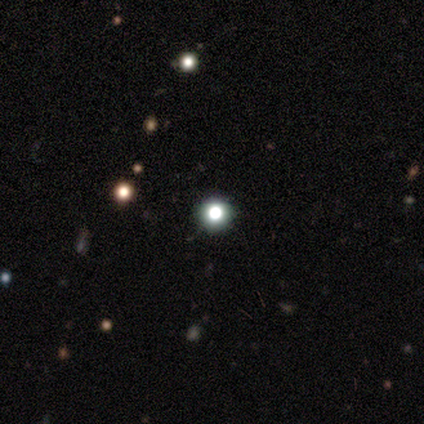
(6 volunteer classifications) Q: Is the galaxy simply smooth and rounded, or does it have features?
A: star or artifact — 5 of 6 (83%).